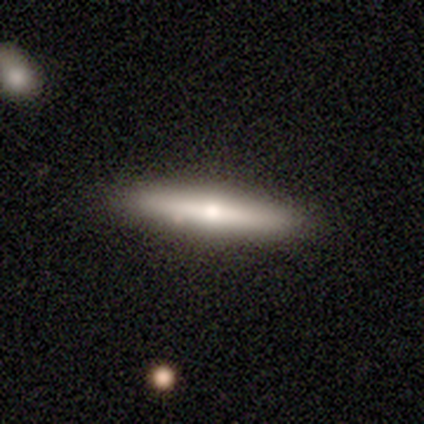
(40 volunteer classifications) smooth-or-featured: featured or disk: 50% | smooth: 48% | star or artifact: 2%
  disk-edge-on: yes: 85% | no: 15%
    edge-on-bulge: rounded: 82% | none: 12% | boxy: 6%
  merging: none: 92% | minor disturbance: 8% | major disturbance: 0% | merger: 0%